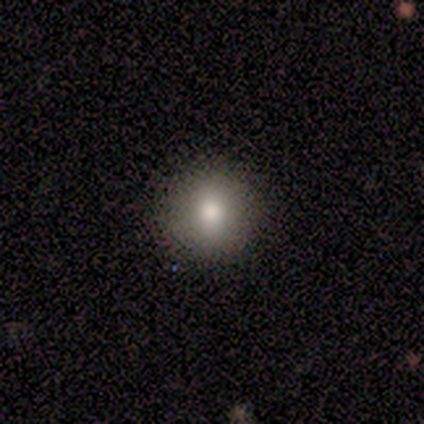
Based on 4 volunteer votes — Consensus on every question: smooth or featured — smooth (100%); how rounded — round (100%); merging — none (100%).